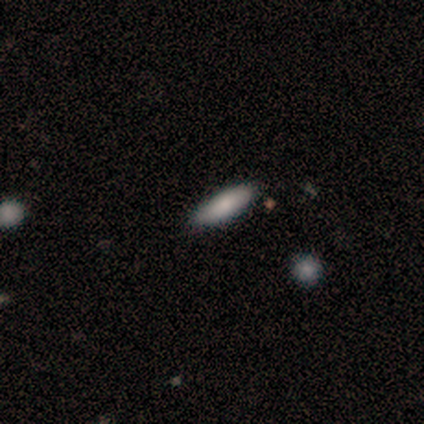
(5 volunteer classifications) A smooth galaxy with no disk features (100%) that is cigar-shaped (60%). Merging: none (100%).